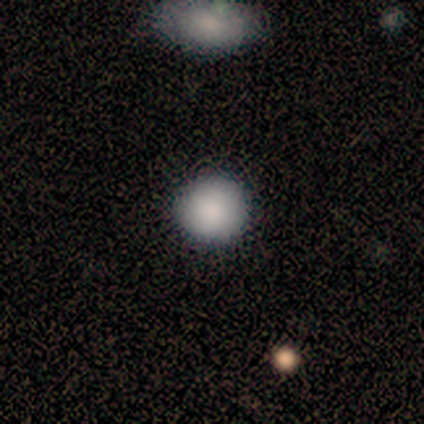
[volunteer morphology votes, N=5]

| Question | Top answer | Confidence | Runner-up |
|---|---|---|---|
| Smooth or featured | smooth | 100% | — |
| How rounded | round | 100% | — |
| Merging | none | 80% | minor disturbance (20%) |